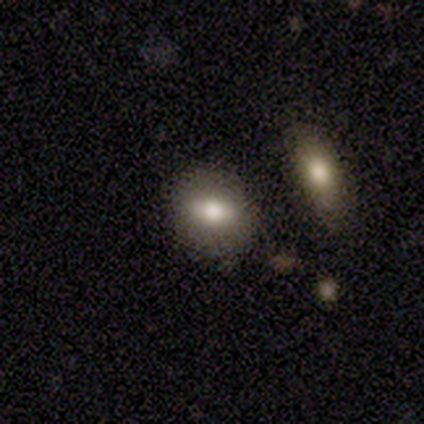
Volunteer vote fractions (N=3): smooth-or-featured: smooth: 67% | featured or disk: 33% | star or artifact: 0%
  how-rounded: round: 50% (tied) | in between: 50% (tied) | cigar-shaped: 0%
  merging: none: 100% | minor disturbance: 0% | major disturbance: 0% | merger: 0%